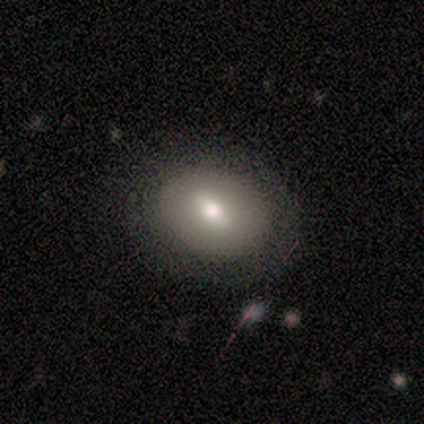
Smooth or featured? 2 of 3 (67%) said smooth. How rounded? 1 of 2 (50%, tied with in between) said round. Merging? 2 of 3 (67%) said none.